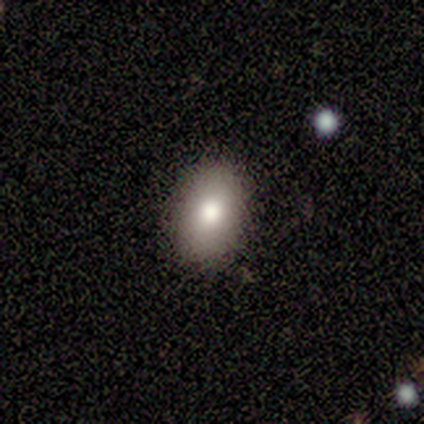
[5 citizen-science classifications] This is clearly a smooth galaxy (80%). How rounded: likely in between (75%). Merging: clearly none (100%).